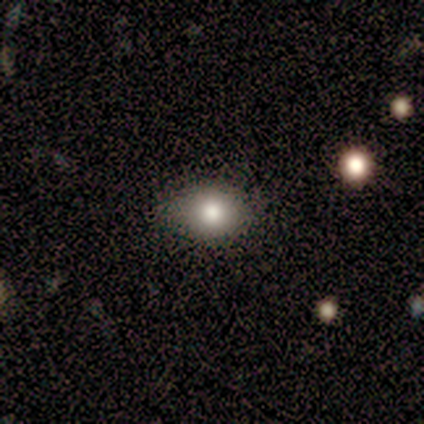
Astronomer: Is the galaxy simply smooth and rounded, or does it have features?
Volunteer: smooth — 80%.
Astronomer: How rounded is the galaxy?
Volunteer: round — 100%.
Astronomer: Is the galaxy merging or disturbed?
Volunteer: none — 100%.